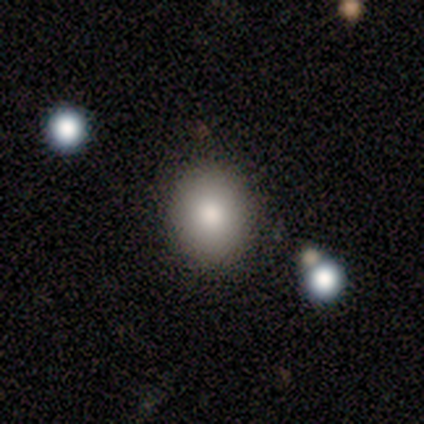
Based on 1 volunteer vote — smooth_or_featured: featured or disk (p=1.00)
disk_edge_on: no (p=1.00)
bar: no (p=1.00)
has_spiral_arms: no (p=1.00)
bulge_size: small (p=1.00)
merging: none (p=1.00)